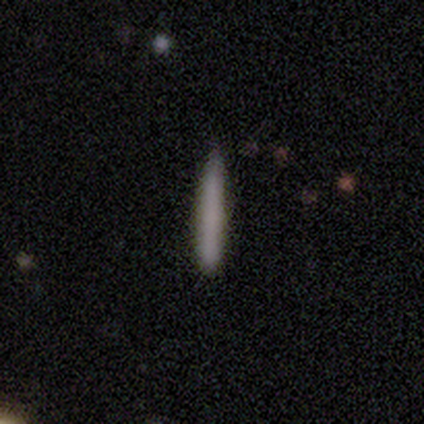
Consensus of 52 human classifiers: Q: Smooth or featured?
A: smooth (81%); runner-up: featured or disk (17%)
Q: How rounded?
A: cigar-shaped (100%)
Q: Merging?
A: none (82%); runner-up: minor disturbance (16%)